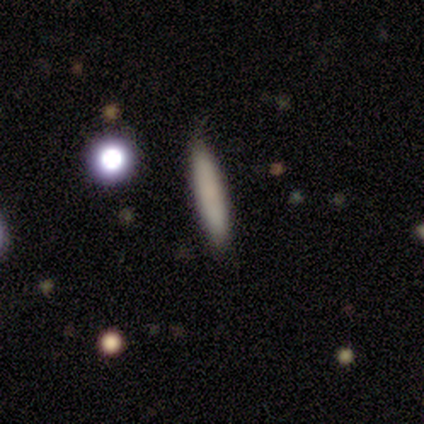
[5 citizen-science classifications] Smooth or featured: smooth — 100%
How rounded: cigar-shaped — 100%
Merging: none — 100%